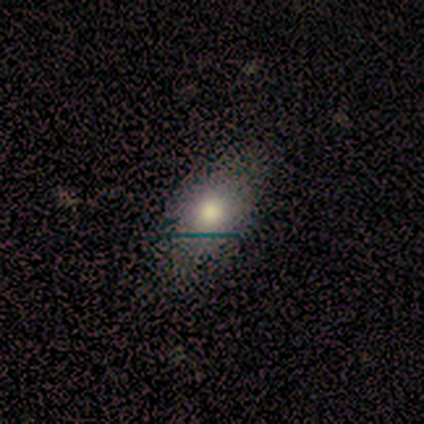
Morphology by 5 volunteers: This appears to be a smooth galaxy with no disk features (80%) that is in between round and cigar-shaped (75%). Merging: none (80%).